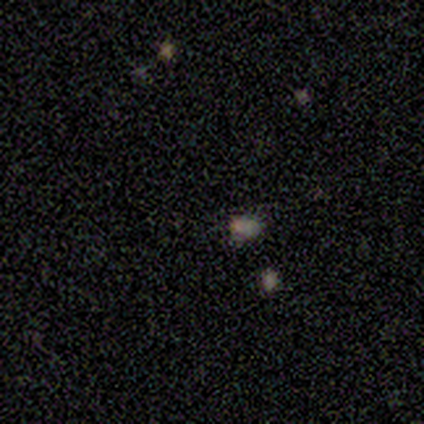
Morphology: type=star or artifact (60%).